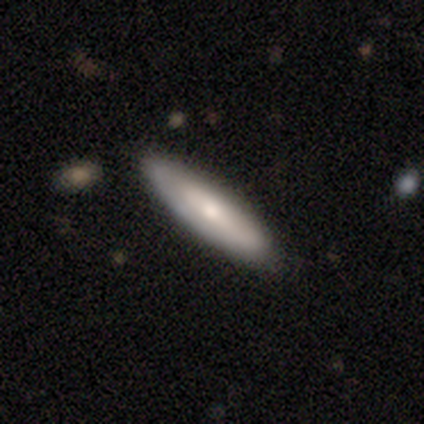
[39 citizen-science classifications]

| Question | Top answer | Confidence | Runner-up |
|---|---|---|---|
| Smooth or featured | smooth | 69% | featured or disk (26%) |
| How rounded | cigar-shaped | 63% | in between (37%) |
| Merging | none | 73% | minor disturbance (24%) |